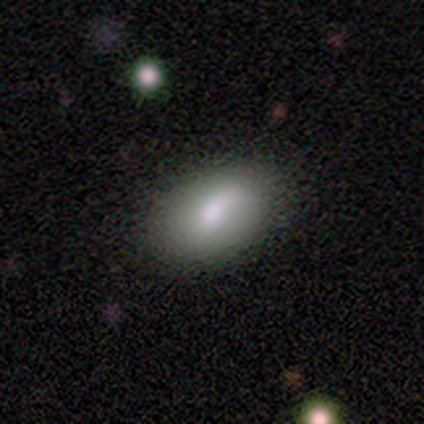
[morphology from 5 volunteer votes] Smooth or featured? 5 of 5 (100%) said smooth. How rounded? 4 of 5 (80%) said in between. Merging? 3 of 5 (60%) said none.